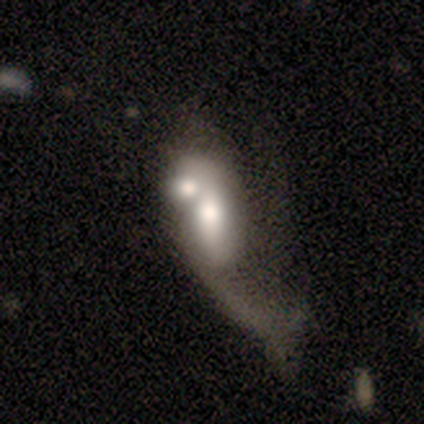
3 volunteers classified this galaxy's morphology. Smooth or featured: featured or disk — 67% (smooth — 33%)
Edge-on disk: no — 100%
Bar: weak — 50% (tied with no — 50%)
Spiral arms: yes — 50% (tied with no — 50%)
Spiral winding: loose — 100%
Spiral arm count: 1 — 100%
Bulge size: large — 50% (tied with moderate — 50%)
Merging: merger — 67% (major disturbance — 33%)